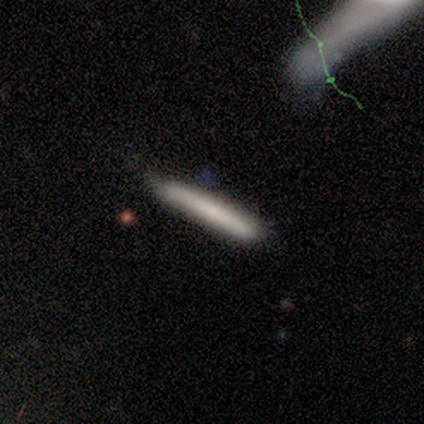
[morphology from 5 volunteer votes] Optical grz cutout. It shows a smooth galaxy with no disk features (80%) that is cigar-shaped (100%). Merging: none (50%, tied with minor disturbance).